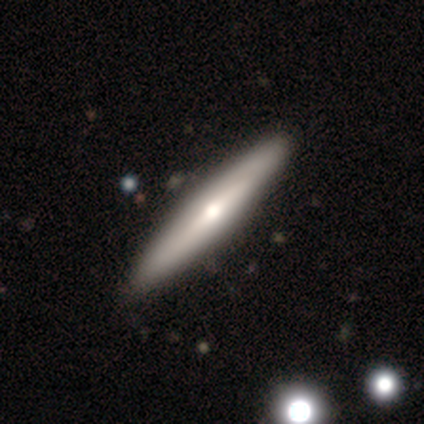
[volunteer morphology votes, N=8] Q: Smooth or featured?
A: featured or disk (75%); runner-up: smooth (12%)
Q: Edge-on disk?
A: yes (100%)
Q: Edge-on bulge?
A: rounded (83%); runner-up: none (17%)
Q: Merging?
A: none (100%)